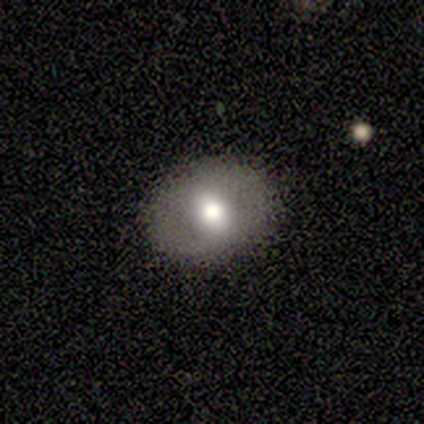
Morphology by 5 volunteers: Smooth or featured? 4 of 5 (80%) said smooth. How rounded? 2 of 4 (50%, tied with in between) said round. Merging? 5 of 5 (100%) said none.